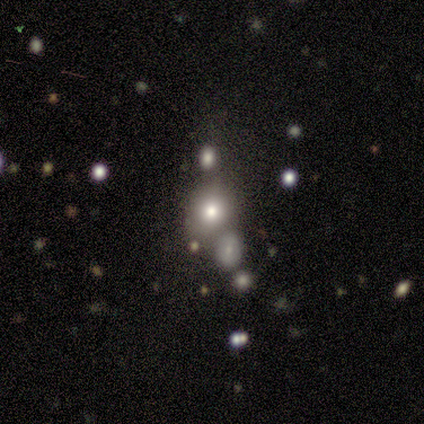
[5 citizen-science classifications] Smooth or featured? 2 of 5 (40%, tied with star or artifact) said smooth. How rounded? 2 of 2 (100%) said round. Merging? 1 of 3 (33%, tied with major disturbance and merger) said none.